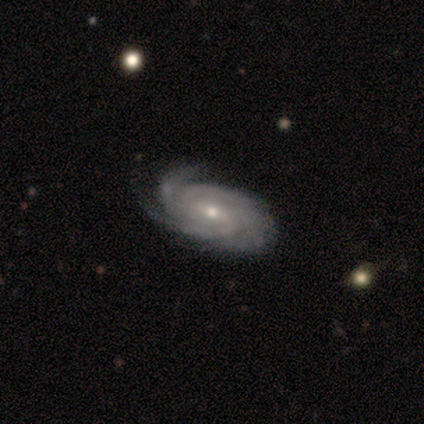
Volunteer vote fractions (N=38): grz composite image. It shows a featured or disk galaxy (89%) with a weak bar (67%), 3 (33%) tight (67%) spiral arms (100%) and a moderate central bulge (48%, tied with small). Merging: none (69%).